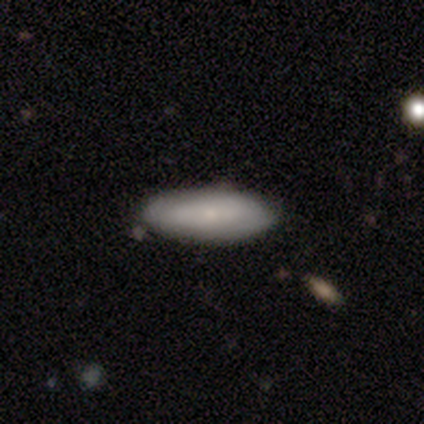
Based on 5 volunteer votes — Smooth or featured?
  - featured or disk: 60% *
  - smooth: 20%
  - star or artifact: 20%
Edge-on disk?
  - no: 67% *
  - yes: 33%
Bar?
  - no: 100% *
  - strong: 0%
  - weak: 0%
Spiral arms?
  - yes: 50% * (tied)
  - no: 50% * (tied)
Spiral winding?
  - tight: 100% *
  - medium: 0%
  - loose: 0%
Spiral arm count?
  - 2: 100% *
  - 1: 0%
  - 3: 0%
  - 4: 0%
  - more than 4: 0%
  - can't tell: 0%
Bulge size?
  - small: 100% *
  - dominant: 0%
  - large: 0%
  - moderate: 0%
  - none: 0%
Merging?
  - none: 100% *
  - minor disturbance: 0%
  - major disturbance: 0%
  - merger: 0%